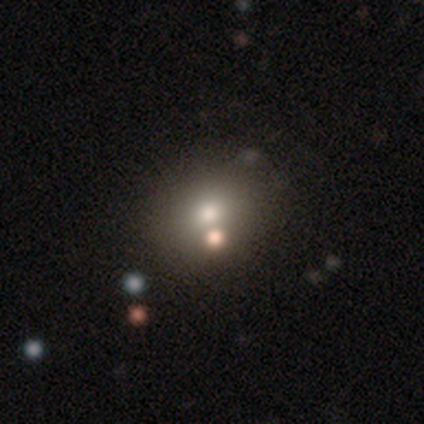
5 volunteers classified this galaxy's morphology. Volunteers were most divided on "smooth or featured": smooth: 60%, star or artifact: 40%, featured or disk: 0%. More confident: how rounded — in between (67%); merging — none (67%).